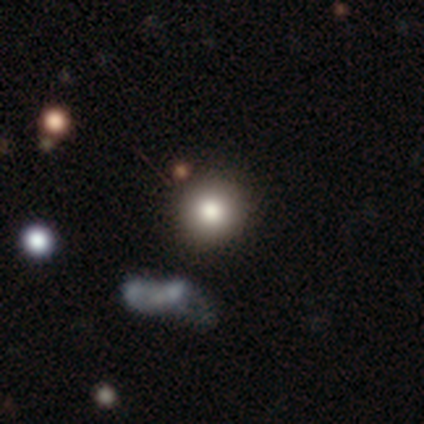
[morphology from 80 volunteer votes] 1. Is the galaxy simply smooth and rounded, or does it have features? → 81% smooth, 10% star or artifact, 9% featured or disk.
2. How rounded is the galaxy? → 98% round, 2% in between, 0% cigar-shaped.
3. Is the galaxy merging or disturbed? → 46% none, 10% merger, 0% minor disturbance, 0% major disturbance.